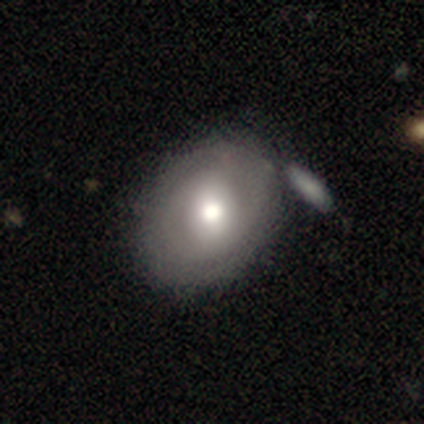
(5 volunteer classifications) Morphology: type=smooth (40%, tied with featured or disk); roundness=round (50%, tied with in between); merging=none (50%, tied with merger).